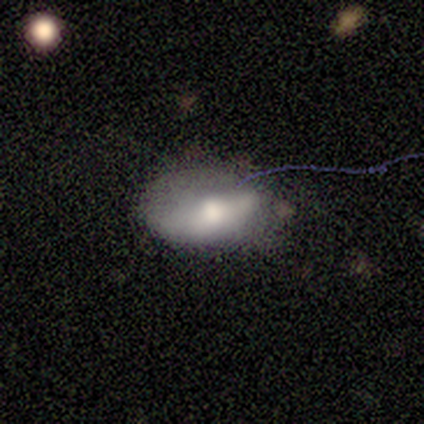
A smooth galaxy with no disk features (58%) that is in between round and cigar-shaped (100%).

Vote fractions:
- Smooth or featured? smooth: 58% / featured or disk: 36% / star or artifact: 6%
- How rounded? in between: 100% / round: 0% / cigar-shaped: 0%
- Merging? none: 42% / minor disturbance: 36% / major disturbance: 16% / merger: 6%